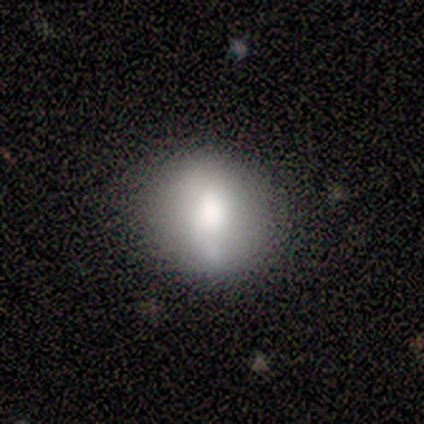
Smooth or featured: smooth — 80% (featured or disk — 20%)
How rounded: round — 100%
Merging: none — 60% (minor disturbance — 40%)